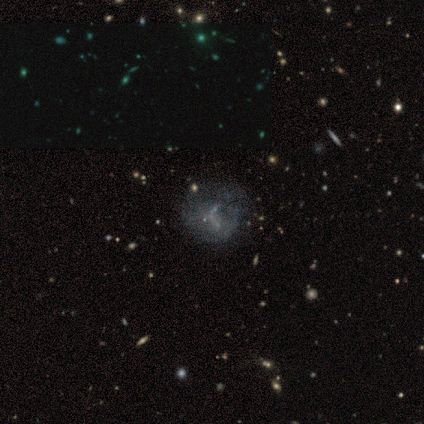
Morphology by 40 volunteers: type=featured or disk (62%); edge-on=no (100%); bar=no (68%); spiral arms=no (84%); bulge=none (76%); merging=none (40%).